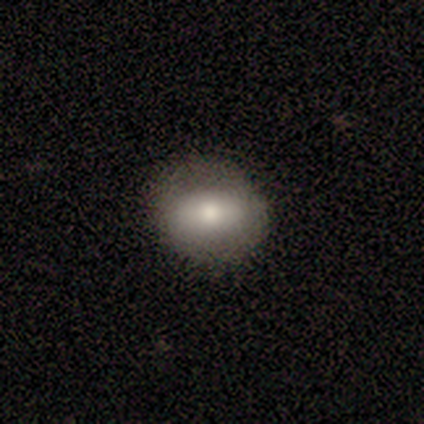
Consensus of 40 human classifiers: This is likely a smooth galaxy (72%). How rounded: possibly round (52%). Merging: clearly none (92%).